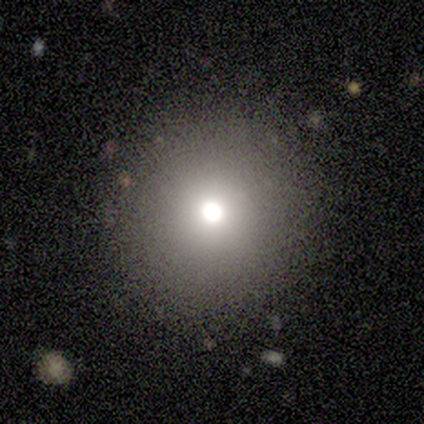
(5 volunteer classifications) featured or disk 60%, smooth 20%, star or artifact 20%. Down the decision tree: edge-on disk — no (100%); bar — no (100%); spiral arms — no (100%); bulge size — moderate (100%); merging — none (100%).